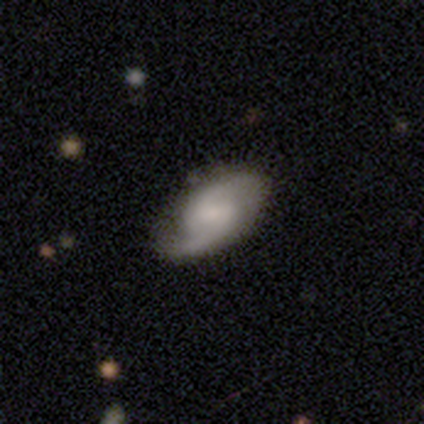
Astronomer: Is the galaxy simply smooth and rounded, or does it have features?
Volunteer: featured or disk — 85%.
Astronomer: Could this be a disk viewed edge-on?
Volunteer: no — 100%.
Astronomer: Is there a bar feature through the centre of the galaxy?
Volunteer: weak — 58%.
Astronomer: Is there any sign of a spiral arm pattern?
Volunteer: yes — 97%.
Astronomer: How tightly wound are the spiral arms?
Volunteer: medium — 44% (runner-up: tight, 28%).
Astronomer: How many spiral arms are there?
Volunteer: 2 — 94%.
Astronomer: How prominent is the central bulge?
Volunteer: small — 48% (runner-up: none, 27%).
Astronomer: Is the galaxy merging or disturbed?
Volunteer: none — 61%.